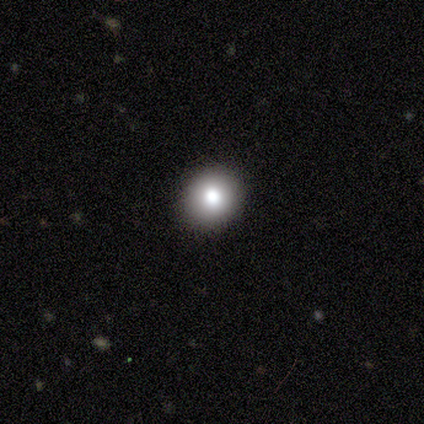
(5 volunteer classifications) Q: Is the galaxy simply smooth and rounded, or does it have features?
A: smooth — 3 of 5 (60%).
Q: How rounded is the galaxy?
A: round — 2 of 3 (67%).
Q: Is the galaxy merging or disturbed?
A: none — 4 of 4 (100%).